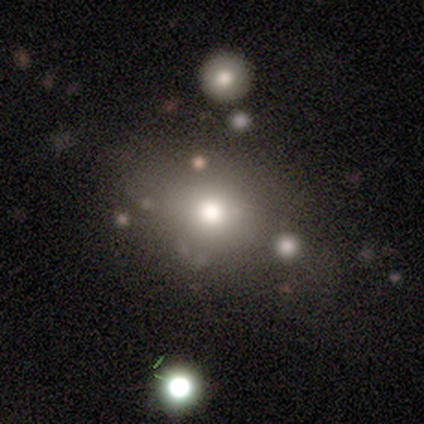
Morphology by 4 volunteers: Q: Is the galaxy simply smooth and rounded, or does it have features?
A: star or artifact — 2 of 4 (50%).